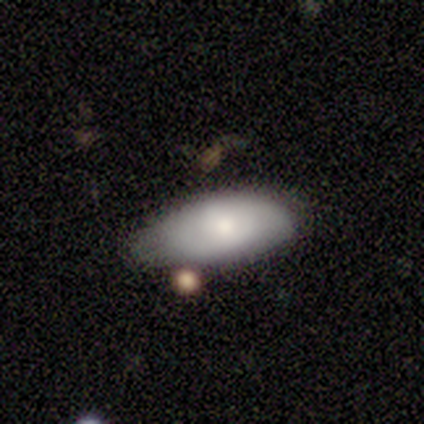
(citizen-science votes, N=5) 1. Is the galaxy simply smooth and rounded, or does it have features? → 60% featured or disk, 40% smooth, 0% star or artifact.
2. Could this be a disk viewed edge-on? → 100% no, 0% yes.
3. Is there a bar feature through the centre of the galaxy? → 67% no, 33% weak, 0% strong.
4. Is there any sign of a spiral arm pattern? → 67% no, 33% yes.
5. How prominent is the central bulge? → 67% moderate, 33% large, 0% dominant, 0% small, 0% none.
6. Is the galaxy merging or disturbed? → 60% none, 20% minor disturbance, 20% major disturbance, 0% merger.